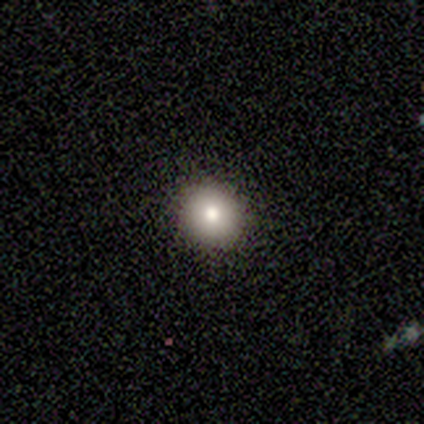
Smooth or featured?
  - smooth: 100% *
  - featured or disk: 0%
  - star or artifact: 0%
How rounded?
  - round: 80% *
  - in between: 20%
  - cigar-shaped: 0%
Merging?
  - none: 60% *
  - minor disturbance: 40%
  - major disturbance: 0%
  - merger: 0%